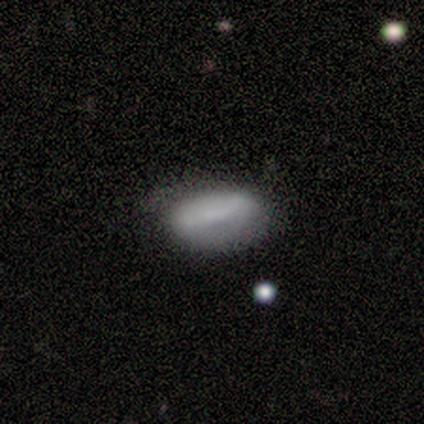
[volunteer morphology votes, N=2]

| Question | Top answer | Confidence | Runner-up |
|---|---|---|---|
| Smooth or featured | smooth | 100% | — |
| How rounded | in between | 100% | — |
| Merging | none | 100% | — |